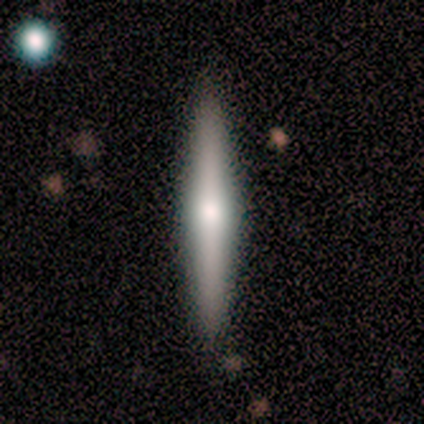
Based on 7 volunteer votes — Morphology: type=smooth (57%); roundness=cigar-shaped (100%); merging=none (100%).